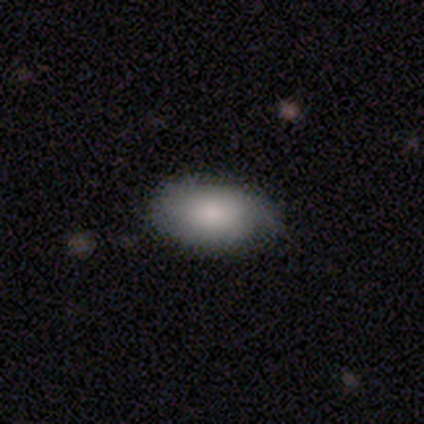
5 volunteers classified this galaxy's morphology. Smooth or featured? smooth (100%)
How rounded? in between (100%)
Merging? none (100%)